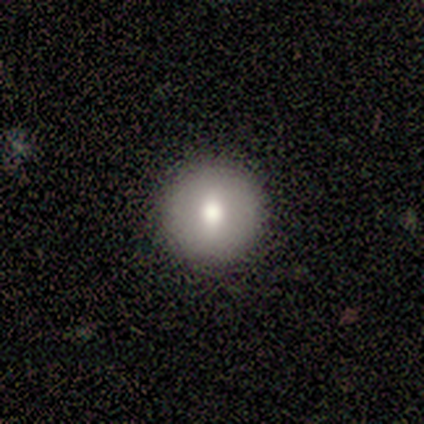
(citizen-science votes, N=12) Q: Smooth or featured?
A: smooth (83%); runner-up: featured or disk (17%)
Q: How rounded?
A: round (80%); runner-up: in between (20%)
Q: Merging?
A: none (100%)